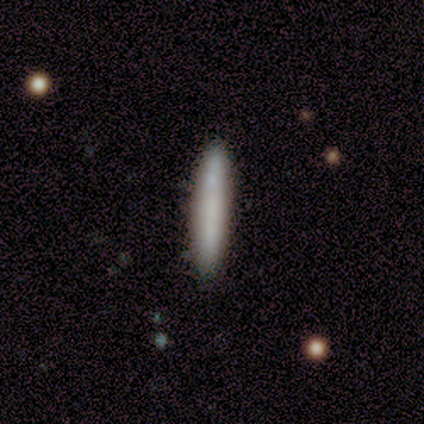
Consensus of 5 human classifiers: Q: Smooth or featured?
A: smooth (80%); runner-up: featured or disk (20%)
Q: How rounded?
A: cigar-shaped (100%)
Q: Merging?
A: none (100%)